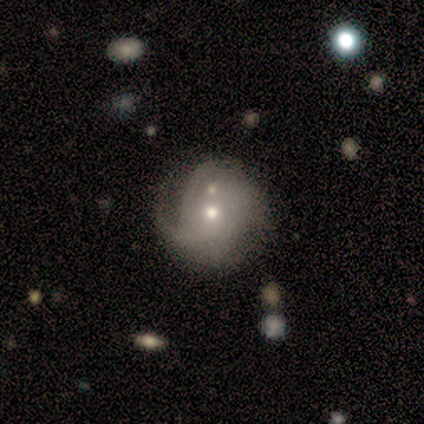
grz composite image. It shows a featured or disk galaxy (60%) with no bar (100%), 3 (67%) medium (100%) spiral arms (100%) and a small central bulge (67%). Merging: none (40%, tied with merger).